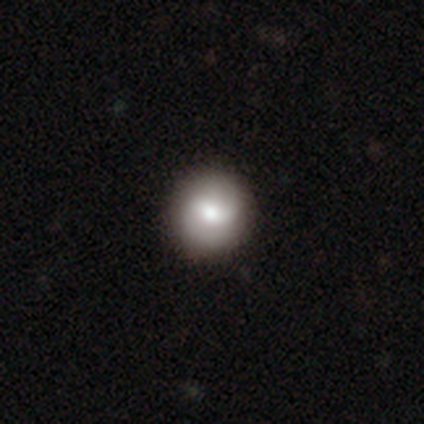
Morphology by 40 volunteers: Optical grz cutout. It shows a featured or disk galaxy (50%) with no bar (53%), 2 (75%) medium (56%) spiral arms (84%) and a moderate central bulge (68%). Merging: none (71%).